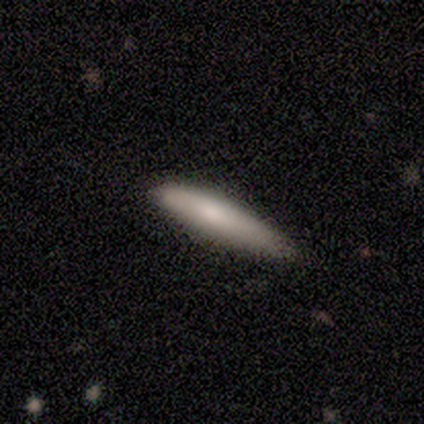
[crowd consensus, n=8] Overall: smooth (75%). How rounded: cigar-shaped (83%). Merging: none (75%).